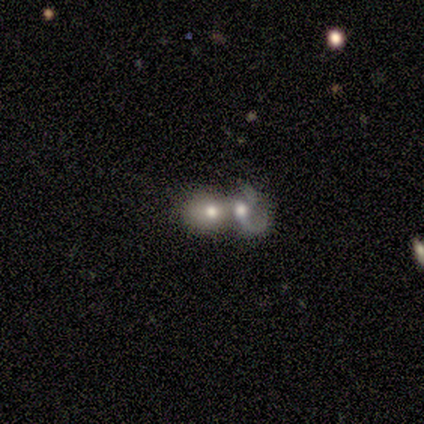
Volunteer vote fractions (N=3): A smooth galaxy with no disk features (100%) that is round (100%).

Vote fractions:
- Smooth or featured? smooth: 100% / featured or disk: 0% / star or artifact: 0%
- How rounded? round: 100% / in between: 0% / cigar-shaped: 0%
- Merging? merger: 100% / none: 0% / minor disturbance: 0% / major disturbance: 0%